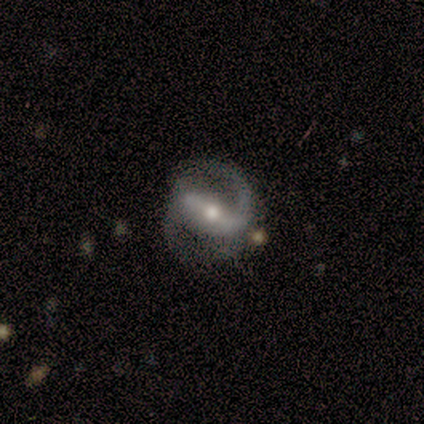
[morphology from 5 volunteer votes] Smooth or featured: featured or disk — 80% (smooth — 20%)
Edge-on disk: no — 100%
Bar: strong — 100%
Spiral arms: yes — 100%
Spiral winding: tight — 50% (medium — 25%)
Spiral arm count: 2 — 75% (can't tell — 25%)
Bulge size: moderate — 100%
Merging: none — 80% (major disturbance — 20%)